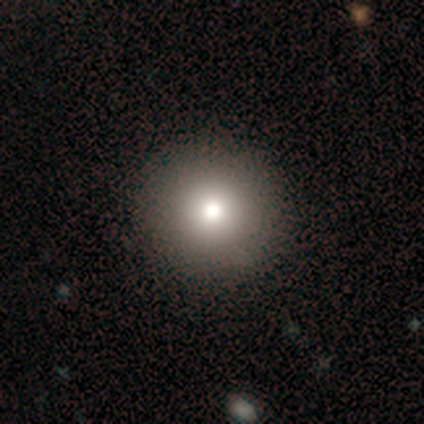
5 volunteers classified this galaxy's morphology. Smooth or featured? 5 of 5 (100%) said smooth. How rounded? 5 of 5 (100%) said round. Merging? 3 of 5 (60%) said none.